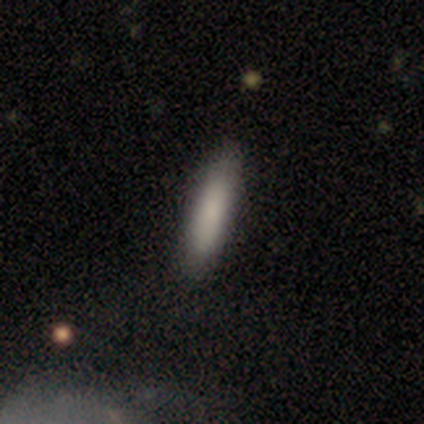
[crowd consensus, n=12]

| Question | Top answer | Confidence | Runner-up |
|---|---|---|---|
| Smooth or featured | smooth | 92% | star or artifact (8%) |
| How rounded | cigar-shaped | 91% | in between (9%) |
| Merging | none | 82% | minor disturbance (18%) |